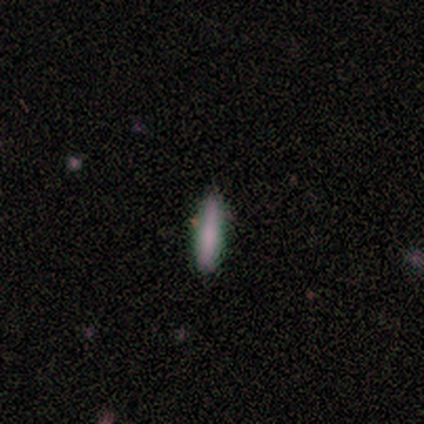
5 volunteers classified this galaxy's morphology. This appears to be a smooth galaxy with no disk features (100%) that is cigar-shaped (80%). Merging: none (60%).